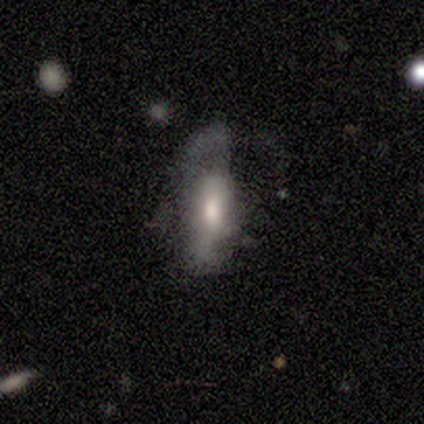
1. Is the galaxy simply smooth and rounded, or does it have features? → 52% smooth, 48% featured or disk, 0% star or artifact.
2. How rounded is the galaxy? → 67% in between, 24% cigar-shaped, 10% round.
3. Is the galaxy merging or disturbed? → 68% major disturbance, 18% none, 12% minor disturbance, 2% merger.